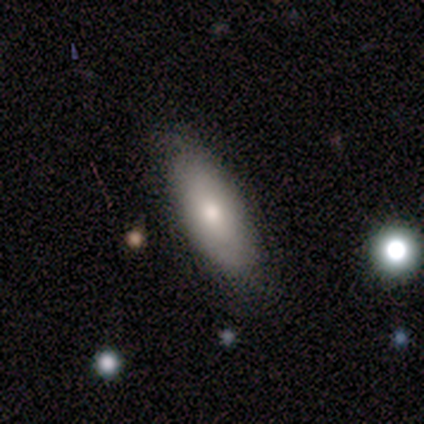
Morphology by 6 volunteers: type=smooth (67%); roundness=in between (100%); merging=none (100%).